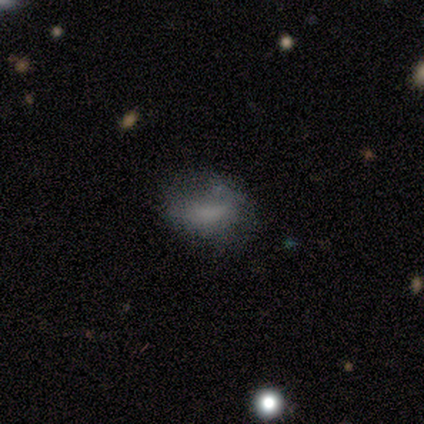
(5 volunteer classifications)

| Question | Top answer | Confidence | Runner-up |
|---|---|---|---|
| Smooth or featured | smooth | 60% | featured or disk (40%) |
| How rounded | in between | 100% | — |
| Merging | none | 80% | minor disturbance (20%) |